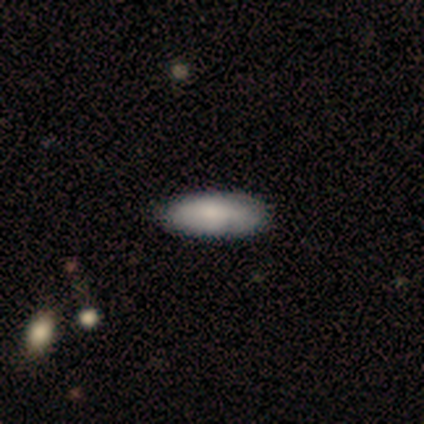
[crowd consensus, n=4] A smooth galaxy with no disk features (75%) that is in between round and cigar-shaped (100%). Merging: none (100%).